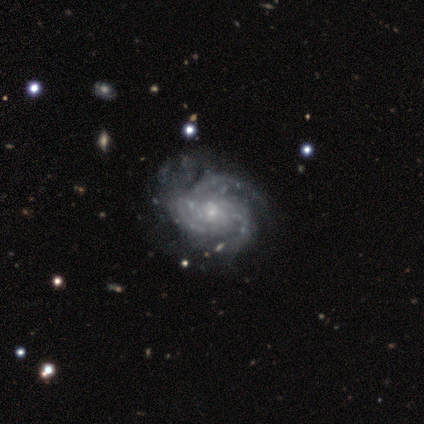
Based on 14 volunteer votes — Q: Smooth or featured?
A: featured or disk (93%); runner-up: smooth (7%)
Q: Edge-on disk?
A: no (92%); runner-up: yes (8%)
Q: Bar?
A: no (83%); runner-up: weak (17%)
Q: Spiral arms?
A: yes (100%)
Q: Spiral winding?
A: tight (67%); runner-up: medium (33%)
Q: Spiral arm count?
A: can't tell (42%); runner-up: 3 (33%)
Q: Bulge size?
A: small (50%); runner-up: moderate (25%)
Q: Merging?
A: none (36%); runner-up: minor disturbance (7%)